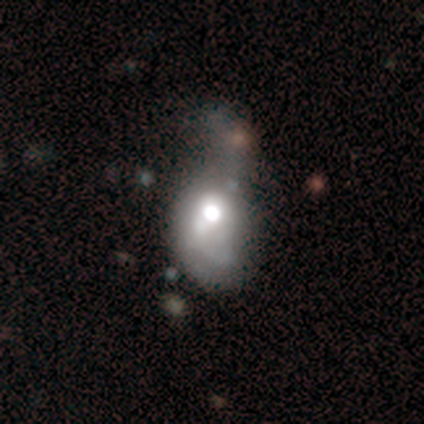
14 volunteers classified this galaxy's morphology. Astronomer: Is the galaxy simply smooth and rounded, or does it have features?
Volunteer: featured or disk — 64%.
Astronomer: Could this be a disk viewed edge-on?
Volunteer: no — 89%.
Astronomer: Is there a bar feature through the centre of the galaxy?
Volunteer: no — 75%.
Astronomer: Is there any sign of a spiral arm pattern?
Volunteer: no — 62%.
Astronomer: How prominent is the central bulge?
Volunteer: large — 50% (runner-up: moderate, 38%).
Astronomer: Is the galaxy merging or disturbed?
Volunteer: major disturbance — 67%.